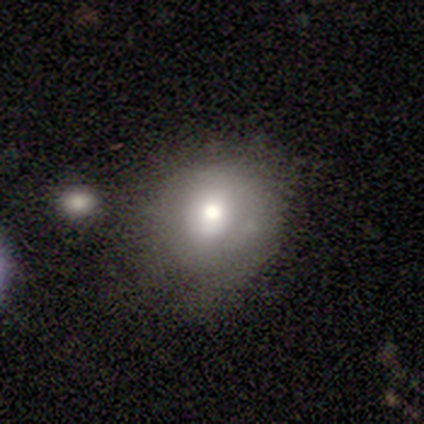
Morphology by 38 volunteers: A smooth galaxy with no disk features (79%) that is round (77%). Merging: none (69%).